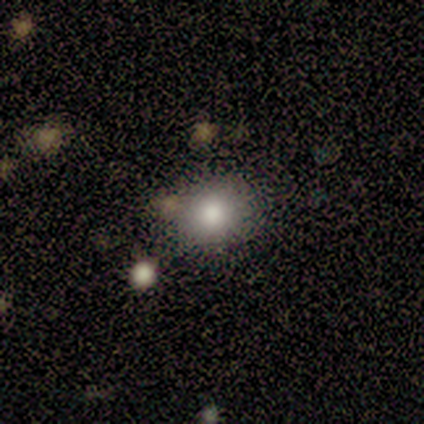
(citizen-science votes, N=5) This appears to be a smooth galaxy with no disk features (100%) that is round (80%). Merging: none (60%).